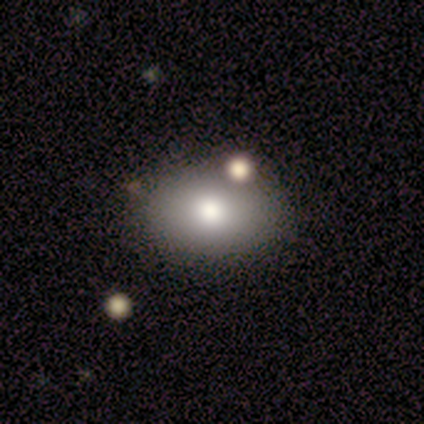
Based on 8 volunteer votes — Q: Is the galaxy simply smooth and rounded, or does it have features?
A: smooth — 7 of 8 (88%).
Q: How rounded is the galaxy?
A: in between — 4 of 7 (57%).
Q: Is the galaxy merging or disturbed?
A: none — 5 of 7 (71%).